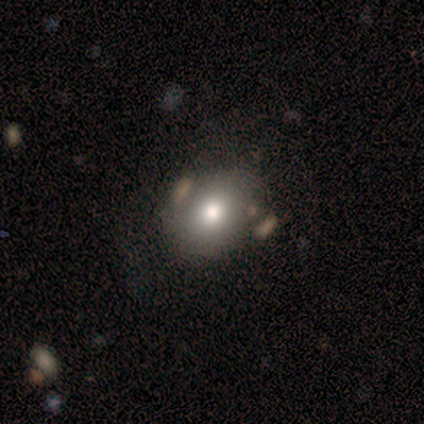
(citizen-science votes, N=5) A smooth galaxy with no disk features (80%) that is round (75%). Merging: none (50%).